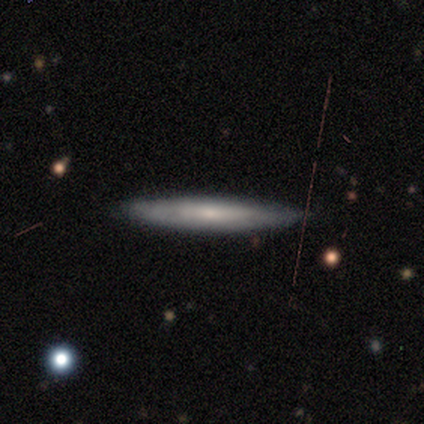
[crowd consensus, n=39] Overall: smooth (59%; featured or disk 41%). How rounded: cigar-shaped (87%). Merging: none (77%).